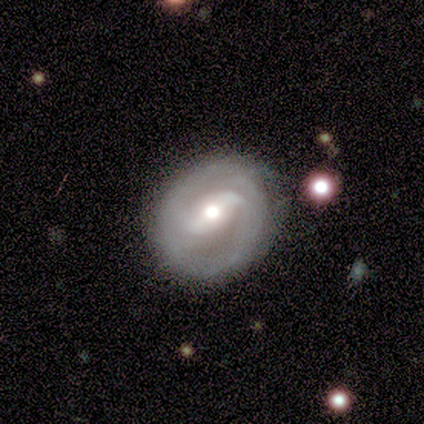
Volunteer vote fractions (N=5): Smooth or featured?
  - featured or disk: 100% *
  - smooth: 0%
  - star or artifact: 0%
Edge-on disk?
  - no: 80% *
  - yes: 20%
Bar?
  - weak: 100% *
  - strong: 0%
  - no: 0%
Spiral arms?
  - yes: 100% *
  - no: 0%
Spiral winding?
  - tight: 50% * (tied)
  - medium: 50% * (tied)
  - loose: 0%
Spiral arm count?
  - 2: 75% *
  - can't tell: 25%
  - 1: 0%
  - 3: 0%
  - 4: 0%
  - more than 4: 0%
Bulge size?
  - moderate: 50% * (tied)
  - small: 50% * (tied)
  - dominant: 0%
  - large: 0%
  - none: 0%
Merging?
  - none: 100% *
  - minor disturbance: 0%
  - major disturbance: 0%
  - merger: 0%